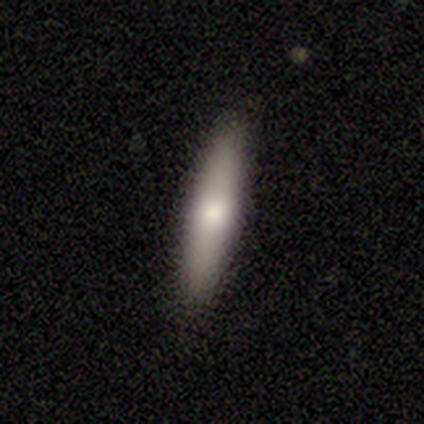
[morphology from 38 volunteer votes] smooth-or-featured: smooth: 71% | featured or disk: 24% | star or artifact: 5%
  how-rounded: cigar-shaped: 89% | in between: 11% | round: 0%
  merging: none: 92% | minor disturbance: 8% | major disturbance: 0% | merger: 0%